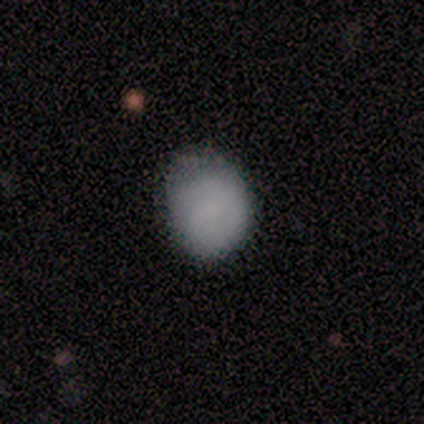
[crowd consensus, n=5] Volunteers were most divided on "how rounded" (2-way tie): round: 40%, in between: 40%, cigar-shaped: 20%; "merging" (2-way tie): none: 40%, major disturbance: 40%, minor disturbance: 20%, merger: 0%. More confident: smooth or featured — smooth (100%).